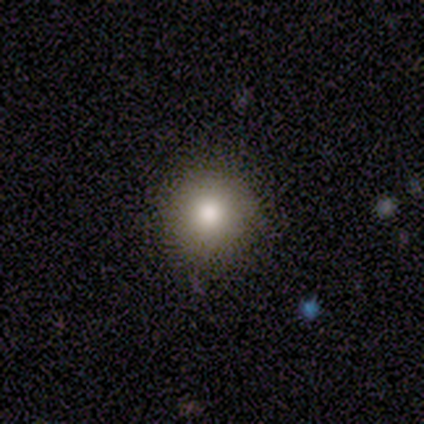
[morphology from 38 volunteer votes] Overall: smooth (76%). How rounded: round (83%). Merging: none (91%).